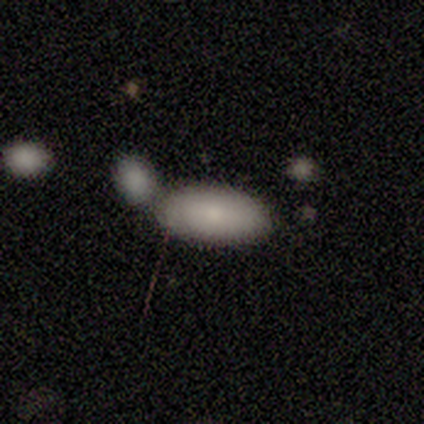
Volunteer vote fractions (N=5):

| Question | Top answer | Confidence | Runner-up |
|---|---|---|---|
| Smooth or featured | smooth | 80% | star or artifact (20%) |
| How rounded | in between | 100% | — |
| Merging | merger | 75% | none (25%) |